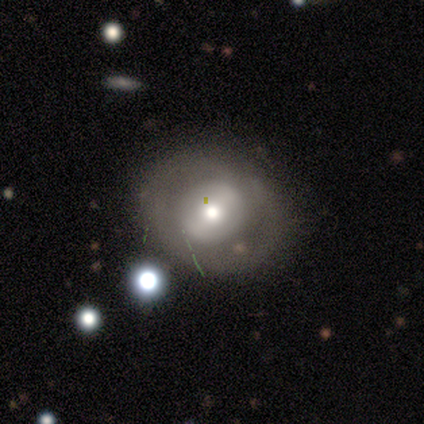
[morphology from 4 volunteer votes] type=smooth (100%); roundness=round (50%, tied with in between); merging=none (75%).